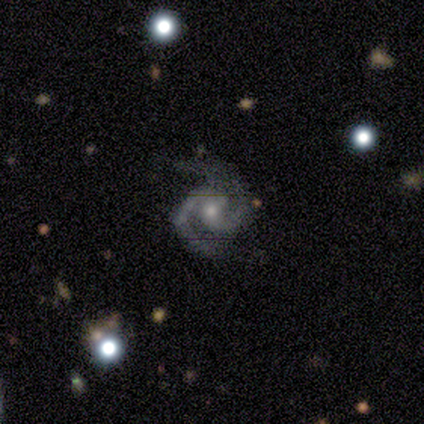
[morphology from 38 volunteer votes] This is clearly a featured or disk galaxy (87%). It is clearly not viewed edge-on (100%). Bar: likely no (70%). Spiral arm pattern: clearly yes (100%). Spiral arm count: clearly 2 (88%). Spiral winding: possibly medium (58%). Central bulge: possibly small (48%). Merging: likely none (69%).